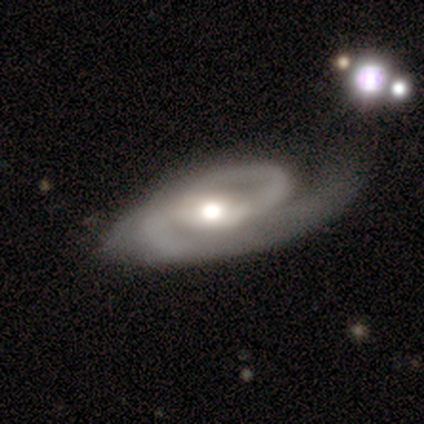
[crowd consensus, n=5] Smooth or featured? 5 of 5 (100%) said featured or disk. Edge-on disk? 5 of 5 (100%) said no. Bar? 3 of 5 (60%) said no. Spiral arms? 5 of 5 (100%) said yes. Spiral winding? 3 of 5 (60%) said medium. Spiral arm count? 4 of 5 (80%) said 2. Bulge size? 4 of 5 (80%) said moderate. Merging? 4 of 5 (80%) said none.